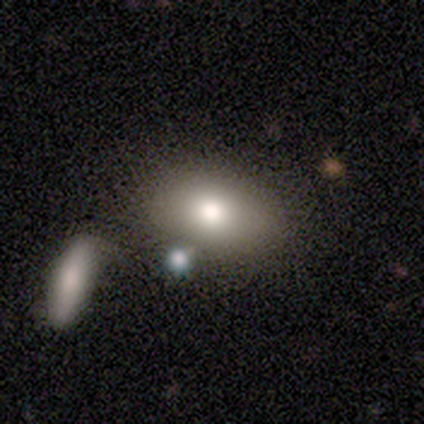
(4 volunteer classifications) featured or disk 50%, smooth 25%, star or artifact 25%. Down the decision tree: edge-on disk — yes (50%, tied with no); edge-on bulge — rounded (100%); merging — none (100%).